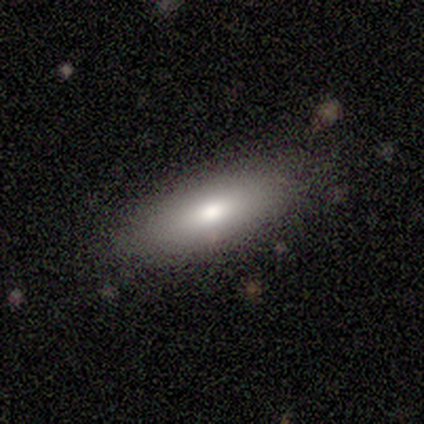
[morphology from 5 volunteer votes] This is clearly a smooth galaxy (100%). How rounded: clearly in between (80%). Merging: clearly none (100%).